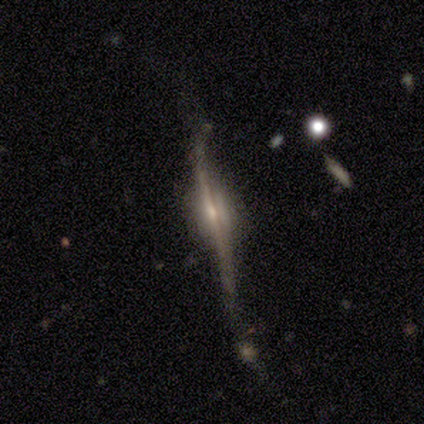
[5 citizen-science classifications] A featured or disk galaxy (100%) viewed edge-on (100%) with a rounded central bulge (60%).

Vote fractions:
- Smooth or featured? featured or disk: 100% / smooth: 0% / star or artifact: 0%
- Edge-on disk? yes: 100% / no: 0%
- Edge-on bulge? rounded: 60% / boxy: 20% / none: 20%
- Merging? minor disturbance: 60% / none: 40% / major disturbance: 0% / merger: 0%